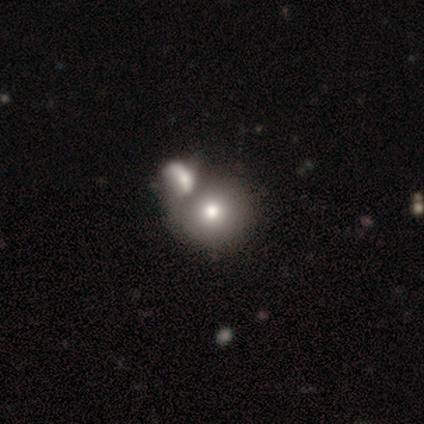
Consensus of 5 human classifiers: smooth_or_featured: smooth (p=0.60) [alt: featured or disk p=0.40]
how_rounded: round (p=1.00)
merging: merger (p=0.60) [alt: none p=0.20]